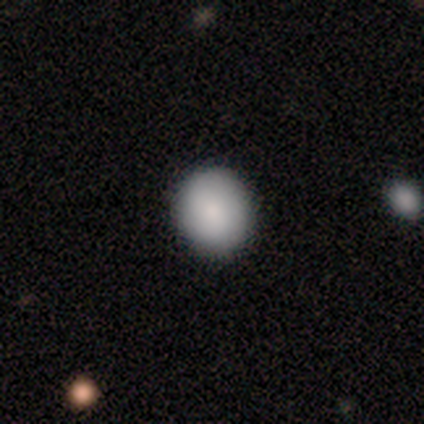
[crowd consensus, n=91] smooth-or-featured: smooth: 86% | star or artifact: 9% | featured or disk: 5%
  how-rounded: round: 78% | in between: 22% | cigar-shaped: 0%
  merging: none: 89% | minor disturbance: 8% | merger: 2% | major disturbance: 0%